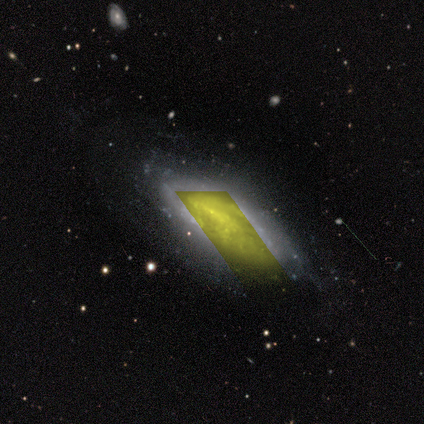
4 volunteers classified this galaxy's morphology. type=star or artifact (50%).